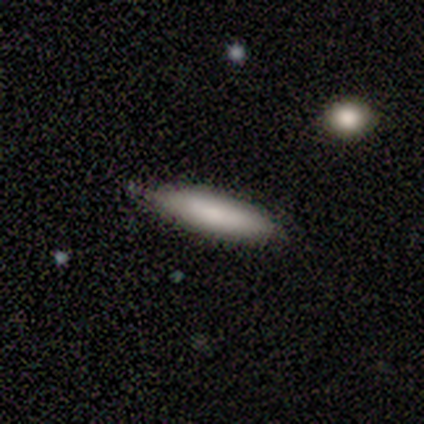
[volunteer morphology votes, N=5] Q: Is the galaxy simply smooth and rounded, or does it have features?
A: smooth — 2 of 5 (40%, tied with featured or disk).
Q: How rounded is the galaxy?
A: round — 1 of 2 (50%, tied with cigar-shaped).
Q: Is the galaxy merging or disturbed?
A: none — 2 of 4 (50%, tied with minor disturbance).